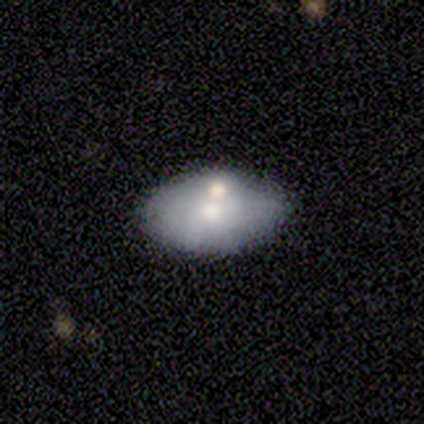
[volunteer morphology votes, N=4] type=smooth (50%, tied with featured or disk); roundness=in between (100%); merging=merger (50%).